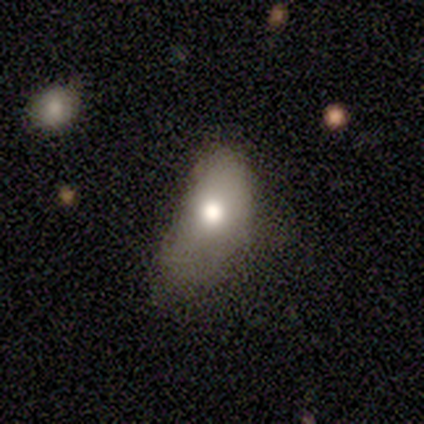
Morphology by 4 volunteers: smooth-or-featured: star or artifact: 50% | smooth: 25% | featured or disk: 25%